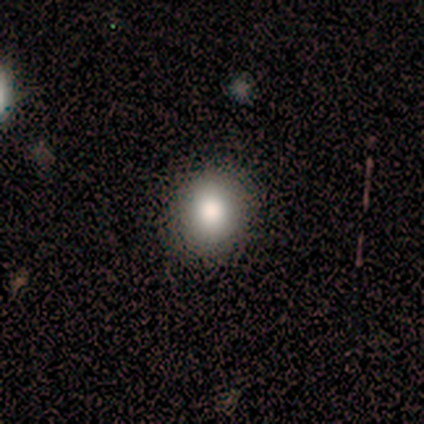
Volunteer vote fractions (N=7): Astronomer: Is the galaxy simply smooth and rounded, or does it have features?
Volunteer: smooth — 57%.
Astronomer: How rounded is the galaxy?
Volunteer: round — 75%.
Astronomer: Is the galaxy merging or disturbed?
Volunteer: none — 100%.